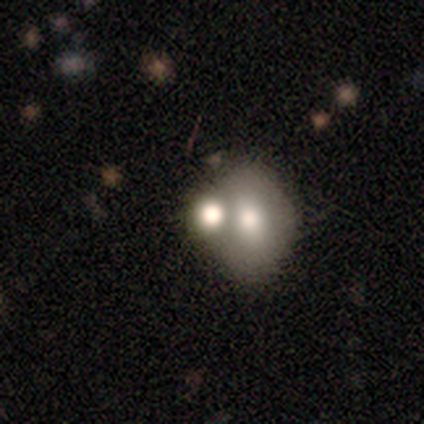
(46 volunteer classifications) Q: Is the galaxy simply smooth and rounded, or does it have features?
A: smooth — 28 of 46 (61%).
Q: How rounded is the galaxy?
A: in between — 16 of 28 (57%).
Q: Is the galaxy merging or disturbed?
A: merger — 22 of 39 (56%).